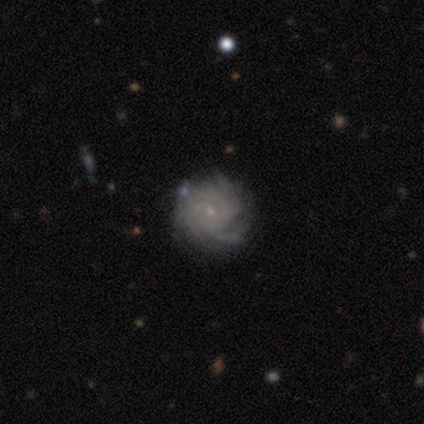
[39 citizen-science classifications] Smooth or featured?
  - featured or disk: 87% *
  - smooth: 8%
  - star or artifact: 5%
Edge-on disk?
  - no: 100% *
  - yes: 0%
Bar?
  - no: 88% *
  - weak: 12%
  - strong: 0%
Spiral arms?
  - yes: 94% *
  - no: 6%
Spiral winding?
  - tight: 81% *
  - medium: 19%
  - loose: 0%
Spiral arm count?
  - can't tell: 53% *
  - 3: 25%
  - more than 4: 9%
  - 2: 6%
  - 4: 6%
  - 1: 0%
Bulge size?
  - small: 91% *
  - moderate: 9%
  - dominant: 0%
  - large: 0%
  - none: 0%
Merging?
  - none: 68% *
  - minor disturbance: 16%
  - major disturbance: 14%
  - merger: 3%